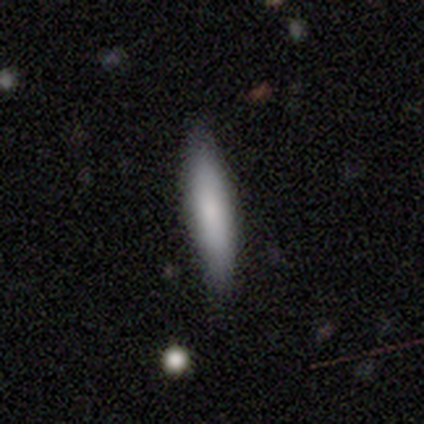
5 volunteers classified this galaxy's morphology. A smooth galaxy with no disk features (60%) that is cigar-shaped (67%).

Vote fractions:
- Smooth or featured? smooth: 60% / featured or disk: 40% / star or artifact: 0%
- How rounded? cigar-shaped: 67% / in between: 33% / round: 0%
- Merging? none: 100% / minor disturbance: 0% / major disturbance: 0% / merger: 0%